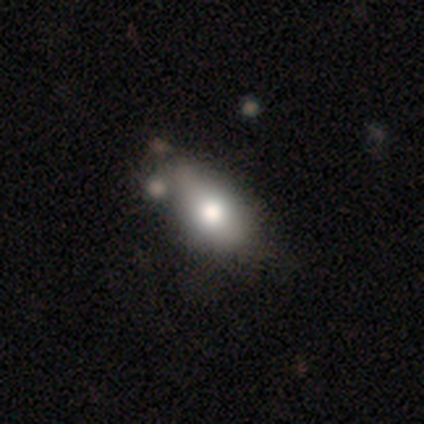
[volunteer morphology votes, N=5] Smooth or featured?
  - featured or disk: 60% *
  - smooth: 20%
  - star or artifact: 20%
Edge-on disk?
  - no: 67% *
  - yes: 33%
Bar?
  - weak: 50% * (tied)
  - no: 50% * (tied)
  - strong: 0%
Spiral arms?
  - yes: 50% * (tied)
  - no: 50% * (tied)
Spiral winding?
  - loose: 100% *
  - tight: 0%
  - medium: 0%
Spiral arm count?
  - 2: 100% *
  - 1: 0%
  - 3: 0%
  - 4: 0%
  - more than 4: 0%
  - can't tell: 0%
Bulge size?
  - large: 50% * (tied)
  - moderate: 50% * (tied)
  - dominant: 0%
  - small: 0%
  - none: 0%
Merging?
  - none: 50% *
  - minor disturbance: 25%
  - merger: 25%
  - major disturbance: 0%